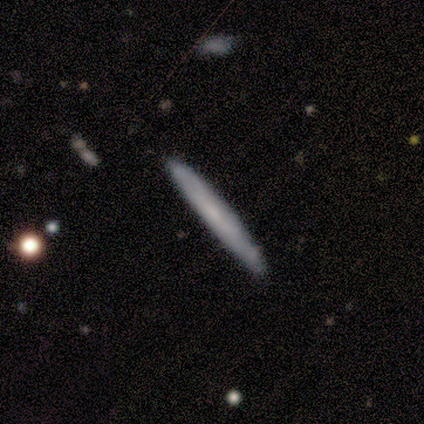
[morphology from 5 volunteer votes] Smooth or featured: smooth — 80% (featured or disk — 20%)
How rounded: cigar-shaped — 100%
Merging: none — 80% (minor disturbance — 20%)